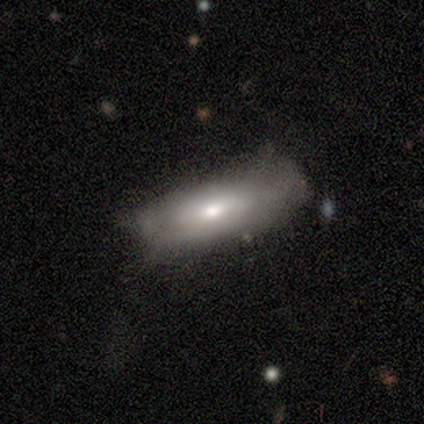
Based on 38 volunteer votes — smooth 61%, featured or disk 39%, star or artifact 0%. Down the decision tree: how rounded — in between (65%); merging — none (29%).